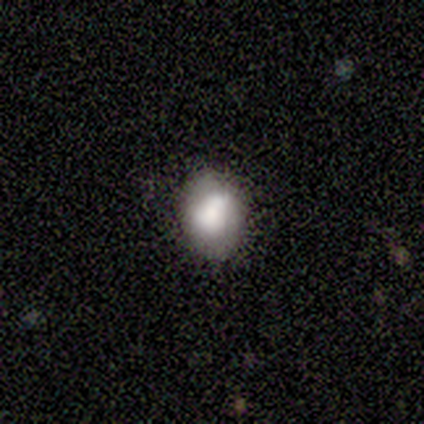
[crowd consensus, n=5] Q: Smooth or featured?
A: smooth (80%); runner-up: featured or disk (20%)
Q: How rounded?
A: in between (75%); runner-up: round (25%)
Q: Merging?
A: none (60%); runner-up: minor disturbance (20%)